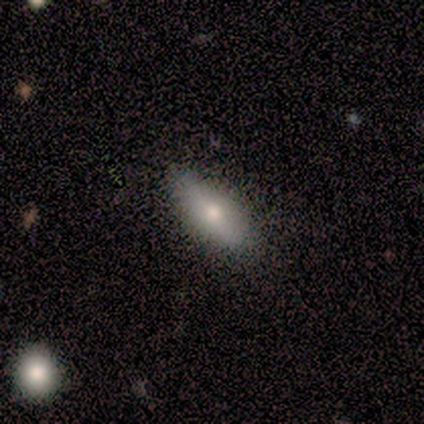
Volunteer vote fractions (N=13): A smooth galaxy with no disk features (62%) that is in between round and cigar-shaped (62%). Merging: none (100%).